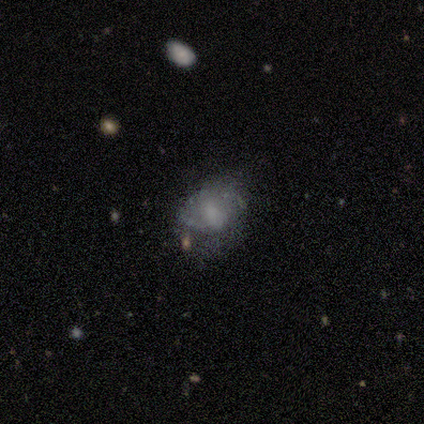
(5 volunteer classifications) smooth_or_featured: featured or disk (p=0.80) [alt: smooth p=0.20]
disk_edge_on: no (p=1.00)
bar: no (p=0.75) [alt: weak p=0.25]
has_spiral_arms: yes (p=0.50) [tied with: no p=0.50]
spiral_winding: medium (p=0.50) [tied with: loose p=0.50]
spiral_arm_count: 2 (p=0.50) [tied with: can't tell p=0.50]
bulge_size: small (p=0.50) [alt: large p=0.25]
merging: none (p=0.60) [alt: minor disturbance p=0.20]